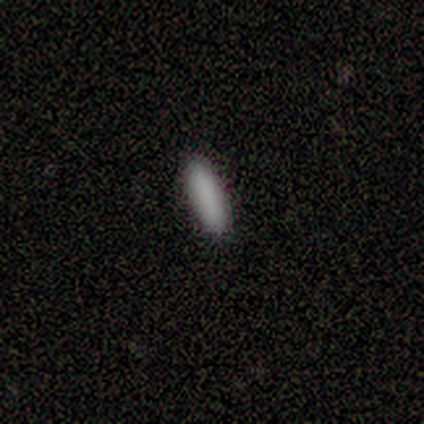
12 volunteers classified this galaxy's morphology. A smooth galaxy with no disk features (100%) that is cigar-shaped (58%).

Vote fractions:
- Smooth or featured? smooth: 100% / featured or disk: 0% / star or artifact: 0%
- How rounded? cigar-shaped: 58% / in between: 42% / round: 0%
- Merging? none: 92% / minor disturbance: 8% / major disturbance: 0% / merger: 0%